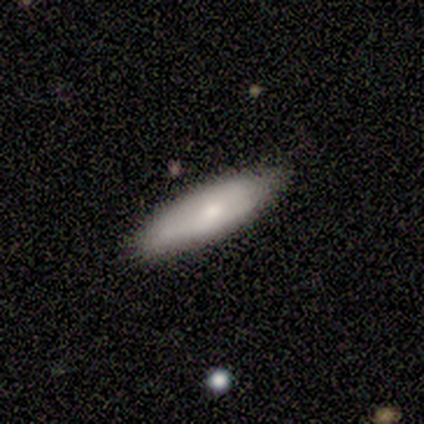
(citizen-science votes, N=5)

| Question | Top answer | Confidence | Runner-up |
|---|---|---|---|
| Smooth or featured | smooth | 80% | featured or disk (20%) |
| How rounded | in between | 50% | tied: cigar-shaped (50%) |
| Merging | none | 100% | — |